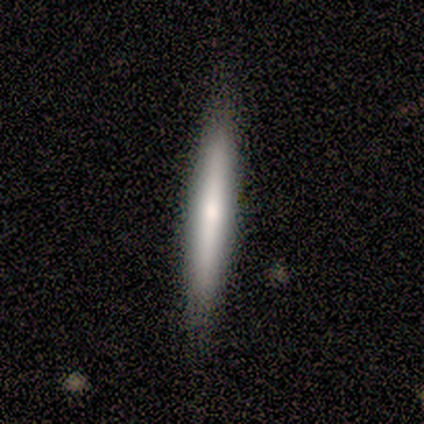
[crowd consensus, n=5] Smooth or featured? smooth (60%)
How rounded? cigar-shaped (100%)
Merging? none (60%)